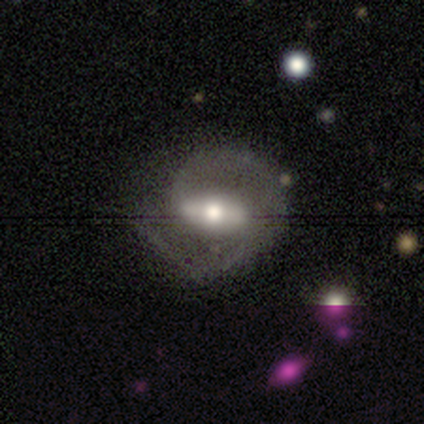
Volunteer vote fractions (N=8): featured or disk 88%, smooth 12%, star or artifact 0%. Down the decision tree: edge-on disk — no (86%); bar — strong (83%); spiral arms — yes (100%); spiral arm count — 2 (100%); spiral winding — medium (67%); bulge size — moderate (50%); merging — none (62%).